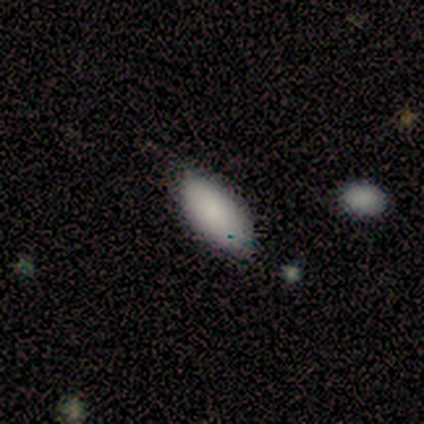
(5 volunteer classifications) This is clearly a smooth galaxy (80%). How rounded: clearly in between (100%). Merging: likely minor disturbance (75%).